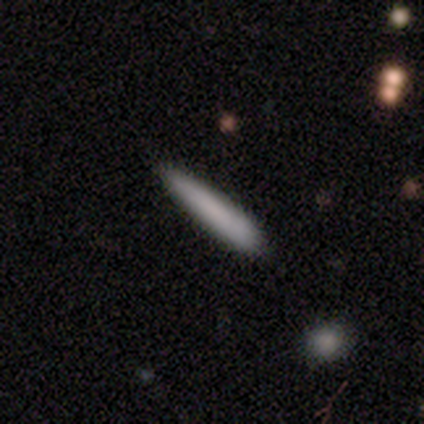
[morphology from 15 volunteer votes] This appears to be a smooth galaxy with no disk features (93%) that is cigar-shaped (93%). Merging: none (79%).